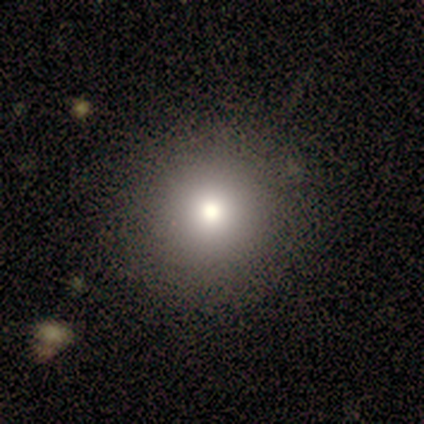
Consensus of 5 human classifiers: Volunteers were most divided on "how rounded": round: 80%, in between: 20%, cigar-shaped: 0%. More confident: smooth or featured — smooth (100%); merging — none (80%).